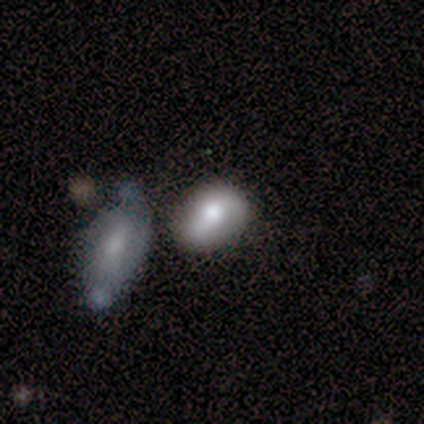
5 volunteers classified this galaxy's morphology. Q: Smooth or featured?
A: featured or disk (80%); runner-up: smooth (20%)
Q: Edge-on disk?
A: yes (50%); tied with: no (50%)
Q: Edge-on bulge?
A: rounded (100%)
Q: Merging?
A: merger (60%); runner-up: none (20%)